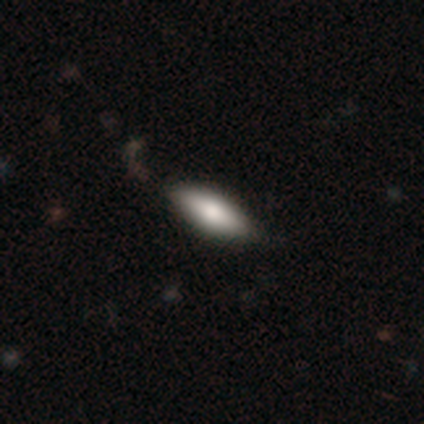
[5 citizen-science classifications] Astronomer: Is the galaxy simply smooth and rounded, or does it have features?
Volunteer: smooth — 100%.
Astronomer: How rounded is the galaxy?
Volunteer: in between — 80%.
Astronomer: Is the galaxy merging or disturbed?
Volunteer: none — 60% (runner-up: minor disturbance, 40%).